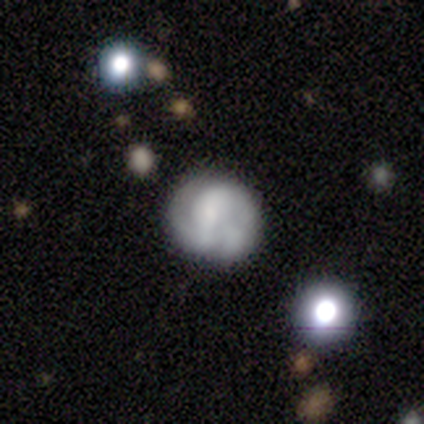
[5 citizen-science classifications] Smooth or featured? featured or disk (60%)
Edge-on disk? no (100%)
Bar? no (67%)
Spiral arms? yes (100%)
Spiral winding? tight (67%)
Spiral arm count? can't tell (67%)
Bulge size? moderate (33%, tied with small and none)
Merging? none (33%, tied with minor disturbance and merger)